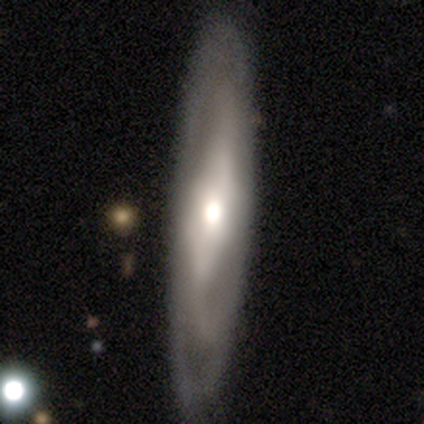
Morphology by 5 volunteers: type=featured or disk (60%); edge-on=no (67%); bar=strong (50%, tied with no); spiral arms=yes (50%, tied with no); winding=medium (100%); arm count=3 (100%); bulge=moderate (50%, tied with none); merging=none (60%).